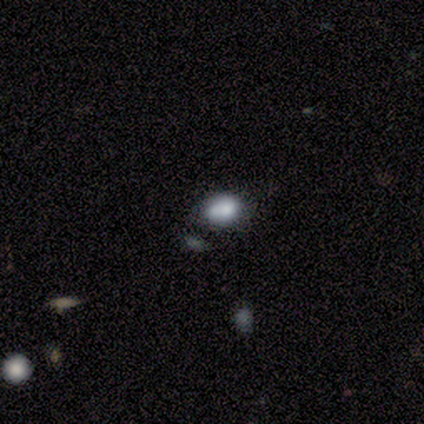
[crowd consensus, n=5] Smooth or featured? 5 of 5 (100%) said smooth. How rounded? 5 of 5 (100%) said in between. Merging? 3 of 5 (60%) said merger.